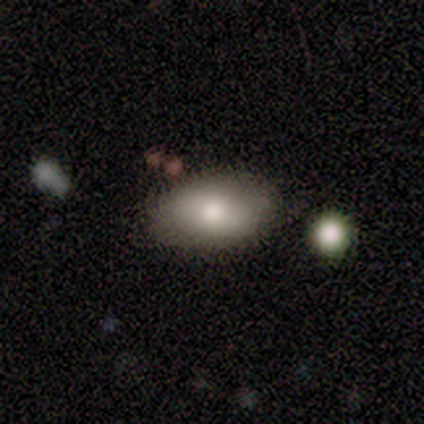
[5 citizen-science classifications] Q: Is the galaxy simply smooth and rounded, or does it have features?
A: smooth — 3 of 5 (60%).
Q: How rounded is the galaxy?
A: in between — 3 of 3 (100%).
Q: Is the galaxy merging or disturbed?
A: none — 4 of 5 (80%).